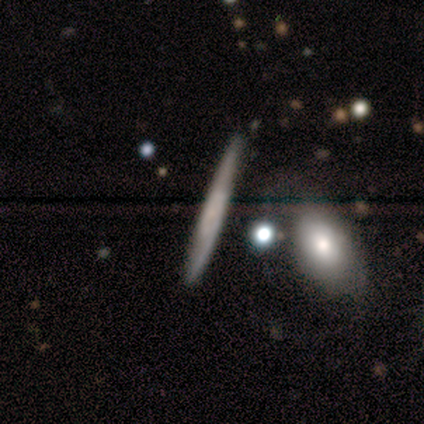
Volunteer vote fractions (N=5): A smooth galaxy with no disk features (80%) that is cigar-shaped (100%).

Vote fractions:
- Smooth or featured? smooth: 80% / star or artifact: 20% / featured or disk: 0%
- How rounded? cigar-shaped: 100% / round: 0% / in between: 0%
- Merging? none: 100% / minor disturbance: 0% / major disturbance: 0% / merger: 0%